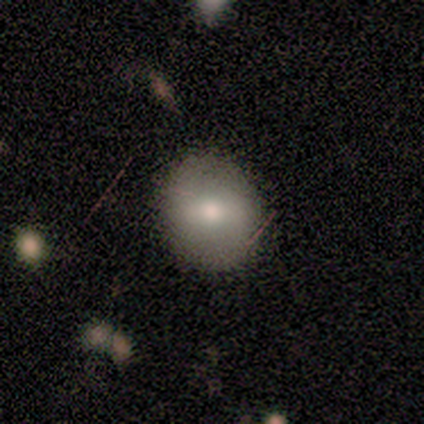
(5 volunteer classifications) A smooth galaxy with no disk features (60%) that is round (100%). Merging: none (100%).